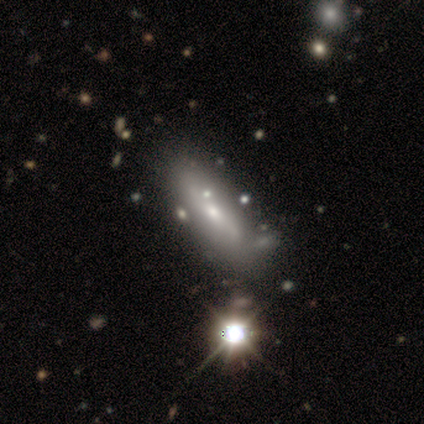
Q: Smooth or featured?
A: smooth (44%); runner-up: featured or disk (38%)
Q: How rounded?
A: in between (71%); runner-up: cigar-shaped (29%)
Q: Merging?
A: none (62%); runner-up: minor disturbance (19%)